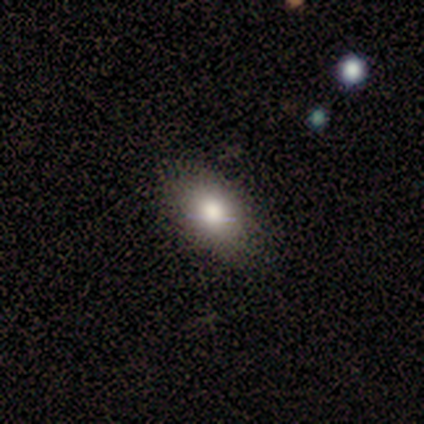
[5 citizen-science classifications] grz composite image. It shows a smooth galaxy with no disk features (100%) that is in between round and cigar-shaped (100%). Merging: none (80%).